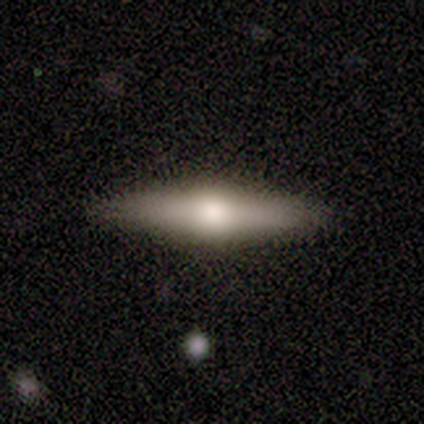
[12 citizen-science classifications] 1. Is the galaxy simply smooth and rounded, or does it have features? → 58% featured or disk, 42% smooth, 0% star or artifact.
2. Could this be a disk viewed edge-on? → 71% yes, 29% no.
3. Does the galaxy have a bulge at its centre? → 100% rounded, 0% boxy, 0% none.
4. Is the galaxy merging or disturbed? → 100% none, 0% minor disturbance, 0% major disturbance, 0% merger.